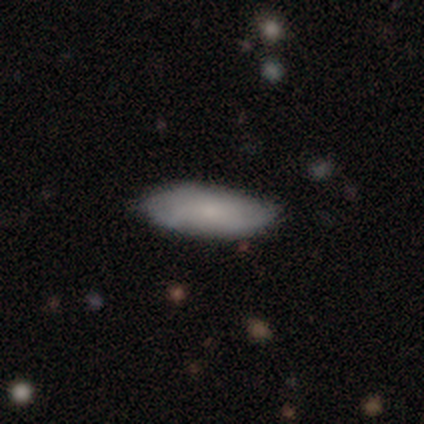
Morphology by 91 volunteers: smooth 75%, featured or disk 20%, star or artifact 5%. Down the decision tree: how rounded — in between (68%); merging — none (81%).